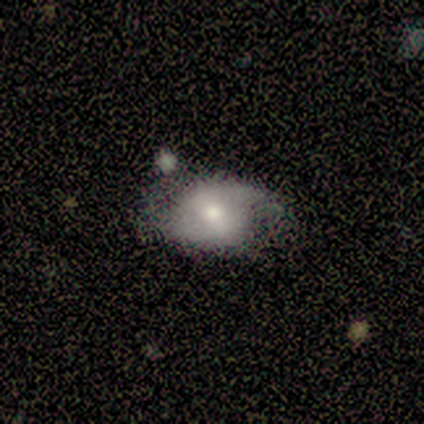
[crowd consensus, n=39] Smooth or featured: featured or disk — 64% (smooth — 28%)
Edge-on disk: no — 96% (yes — 4%)
Bar: no — 42% (weak — 38%)
Spiral arms: yes — 71% (no — 29%)
Spiral winding: loose — 47% (tight — 29%)
Spiral arm count: 2 — 76% (can't tell — 18%)
Bulge size: moderate — 62% (small — 21%)
Merging: none — 44% (minor disturbance — 36%)